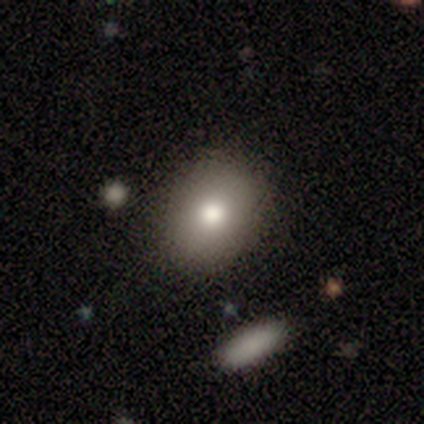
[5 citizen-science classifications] This is clearly a smooth galaxy (100%). How rounded: likely in between (60%). Merging: clearly none (80%).